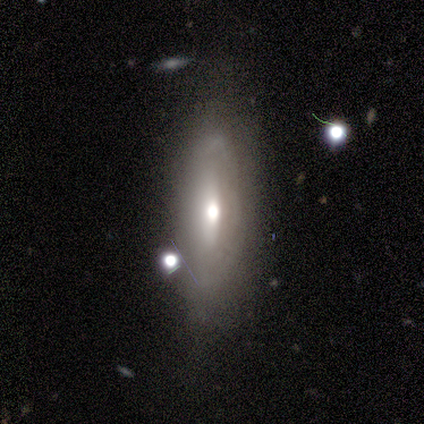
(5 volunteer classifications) Smooth or featured? featured or disk (100%)
Edge-on disk? no (80%)
Bar? no (100%)
Spiral arms? no (100%)
Bulge size? small (75%)
Merging? none (60%)